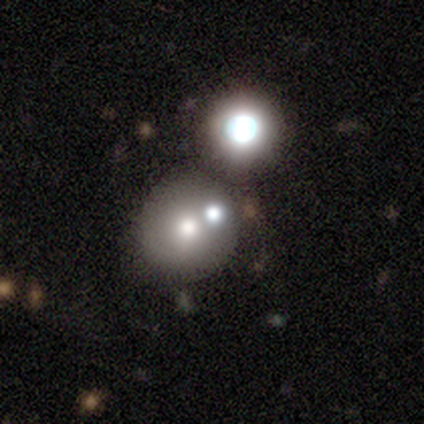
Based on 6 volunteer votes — A smooth galaxy with no disk features (50%) that is round (67%).

Vote fractions:
- Smooth or featured? smooth: 50% / star or artifact: 33% / featured or disk: 17%
- How rounded? round: 67% / in between: 33% / cigar-shaped: 0%
- Merging? none: 50% (tied) / merger: 50% (tied) / minor disturbance: 0% / major disturbance: 0%